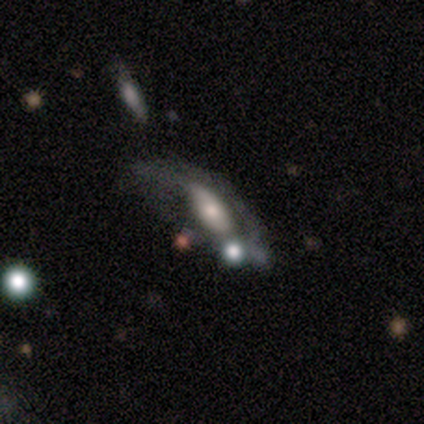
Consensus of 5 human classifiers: Smooth or featured? featured or disk (60%)
Edge-on disk? no (100%)
Bar? no (100%)
Spiral arms? yes (67%)
Spiral winding? loose (100%)
Spiral arm count? can't tell (100%)
Bulge size? small (67%)
Merging? none (40%, tied with minor disturbance)